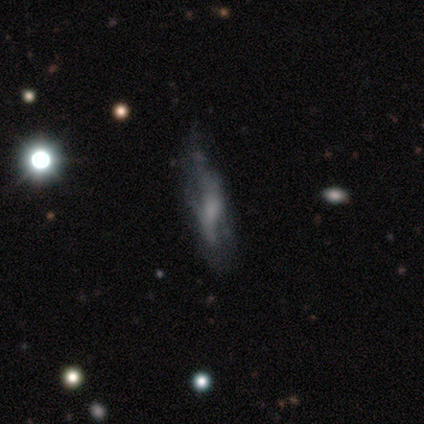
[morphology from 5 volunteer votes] smooth_or_featured: featured or disk (p=0.60) [alt: smooth p=0.20]
disk_edge_on: no (p=0.67) [alt: yes p=0.33]
bar: strong (p=0.50) [tied with: weak p=0.50]
has_spiral_arms: yes (p=0.50) [tied with: no p=0.50]
spiral_winding: loose (p=1.00)
spiral_arm_count: 2 (p=1.00)
bulge_size: moderate (p=0.50) [tied with: small p=0.50]
merging: minor disturbance (p=0.50) [alt: none p=0.25]